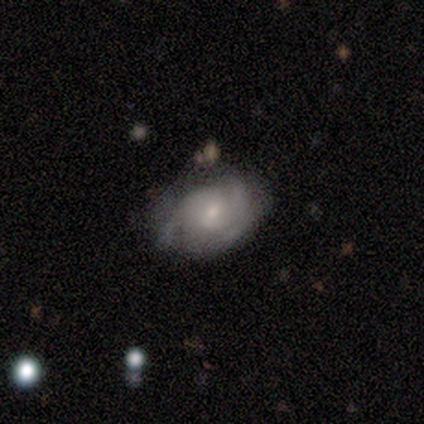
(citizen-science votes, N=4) Overall: featured or disk (75%). Edge-on disk: no (100%). Bar: no (67%; weak 33%). Spiral arms: no (67%; yes 33%). Bulge size: moderate (67%; small 33%). Merging: none (50%; minor disturbance 25%).